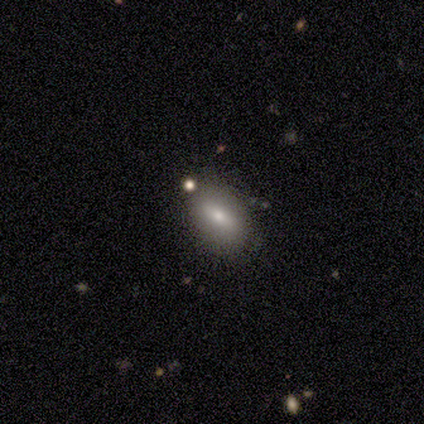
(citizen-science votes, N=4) Q: Smooth or featured?
A: smooth (50%); tied with: featured or disk (50%)
Q: How rounded?
A: in between (100%)
Q: Merging?
A: none (100%)